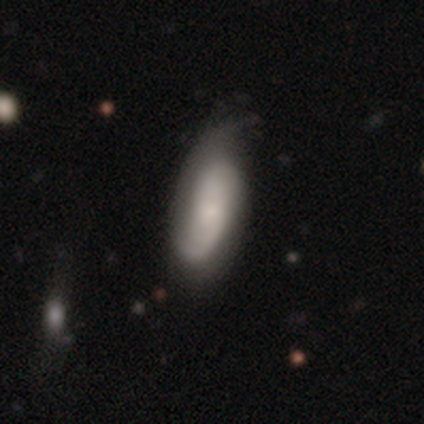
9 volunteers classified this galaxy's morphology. Smooth or featured?
  - featured or disk: 56% *
  - smooth: 33%
  - star or artifact: 11%
Edge-on disk?
  - no: 100% *
  - yes: 0%
Bar?
  - no: 60% *
  - weak: 40%
  - strong: 0%
Spiral arms?
  - yes: 100% *
  - no: 0%
Spiral winding?
  - loose: 60% *
  - medium: 40%
  - tight: 0%
Spiral arm count?
  - 1: 40% * (tied)
  - 2: 40% * (tied)
  - can't tell: 20%
  - 3: 0%
  - 4: 0%
  - more than 4: 0%
Bulge size?
  - small: 60% *
  - moderate: 20%
  - none: 20%
  - dominant: 0%
  - large: 0%
Merging?
  - none: 50% *
  - minor disturbance: 38%
  - major disturbance: 12%
  - merger: 0%